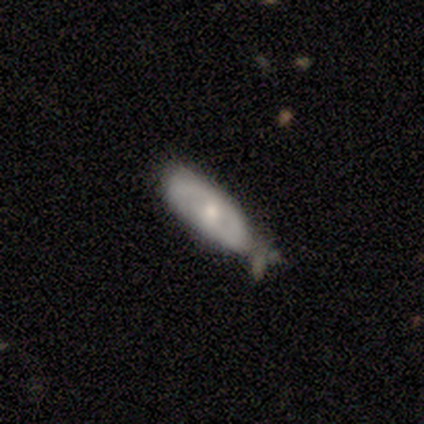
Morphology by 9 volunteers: Smooth or featured?
  - smooth: 56% *
  - featured or disk: 44%
  - star or artifact: 0%
How rounded?
  - in between: 100% *
  - round: 0%
  - cigar-shaped: 0%
Merging?
  - minor disturbance: 56% *
  - none: 33%
  - merger: 11%
  - major disturbance: 0%